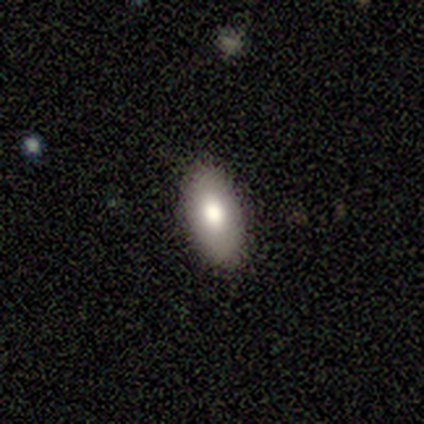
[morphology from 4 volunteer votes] Overall: smooth (100%). How rounded: in between (100%). Merging: none (100%).